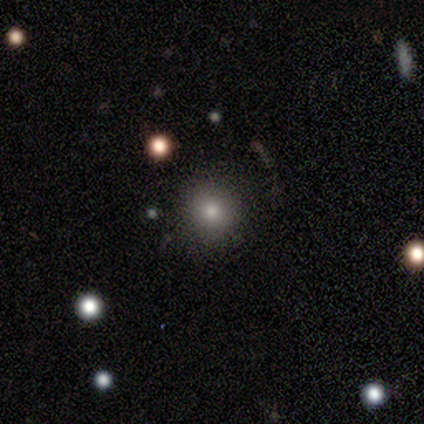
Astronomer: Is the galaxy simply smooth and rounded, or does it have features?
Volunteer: smooth — 100%.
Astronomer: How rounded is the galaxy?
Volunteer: round — 100%.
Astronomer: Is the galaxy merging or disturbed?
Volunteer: none — 80%.